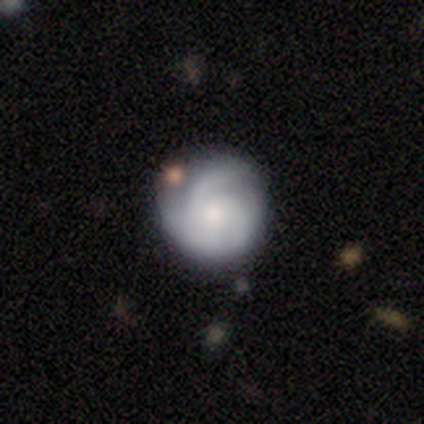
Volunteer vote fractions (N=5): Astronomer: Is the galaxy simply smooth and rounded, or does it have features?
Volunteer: featured or disk — 100%.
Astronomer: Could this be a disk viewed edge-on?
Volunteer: no — 100%.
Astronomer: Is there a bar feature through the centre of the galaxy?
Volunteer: no — 80%.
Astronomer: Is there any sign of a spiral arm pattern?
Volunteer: yes — 100%.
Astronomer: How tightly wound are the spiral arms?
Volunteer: tight — 60% (runner-up: medium, 40%).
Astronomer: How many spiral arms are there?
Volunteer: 3 — 60%.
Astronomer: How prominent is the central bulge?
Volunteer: small — 80%.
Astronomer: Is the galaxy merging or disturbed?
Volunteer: none — 80%.